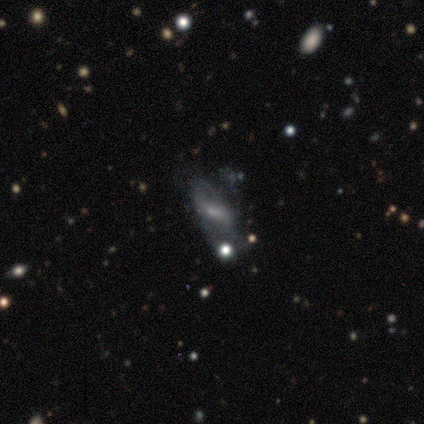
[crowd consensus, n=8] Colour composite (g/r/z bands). It shows a smooth galaxy with no disk features (50%) that is in between round and cigar-shaped (75%). Merging: none (33%, tied with minor disturbance and major disturbance).